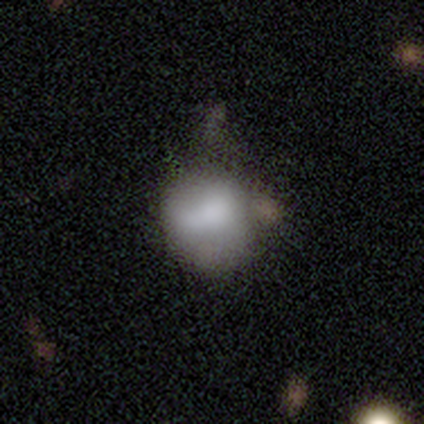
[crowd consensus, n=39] Smooth or featured: smooth — 67% (featured or disk — 31%)
How rounded: round — 62% (in between — 38%)
Merging: minor disturbance — 34% (none — 26%)